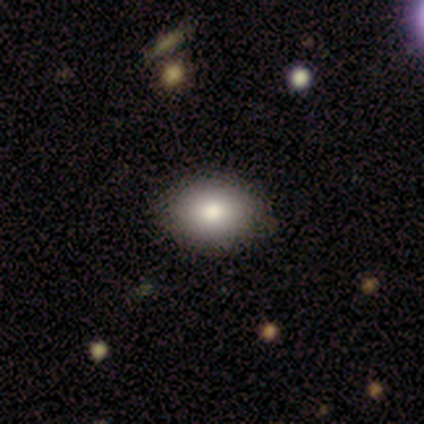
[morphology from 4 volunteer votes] This is clearly a smooth galaxy (100%). How rounded: possibly round (50%, tied with in between). Merging: clearly none (100%).